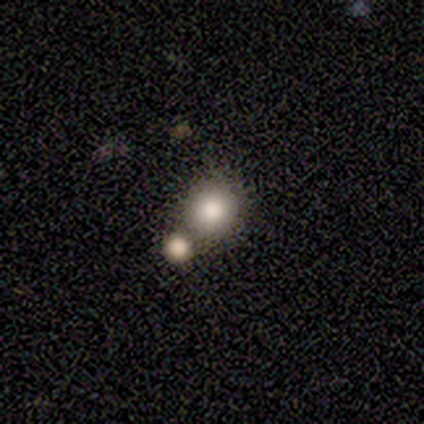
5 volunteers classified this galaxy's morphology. Smooth or featured? smooth (100%)
How rounded? round (100%)
Merging? none (80%)